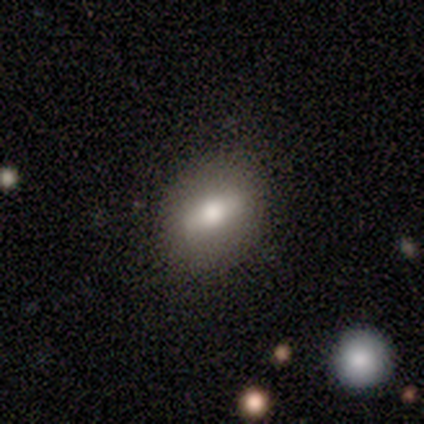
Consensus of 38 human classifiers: Smooth or featured?
  - smooth: 58% *
  - featured or disk: 32%
  - star or artifact: 11%
How rounded?
  - in between: 68% *
  - round: 27%
  - cigar-shaped: 5%
Merging?
  - none: 88% *
  - minor disturbance: 9%
  - major disturbance: 3%
  - merger: 0%